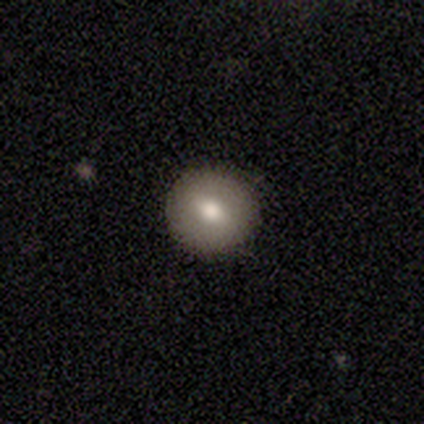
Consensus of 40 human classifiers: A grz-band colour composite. It shows a smooth galaxy with no disk features (78%) that is round (87%). Merging: none (78%).